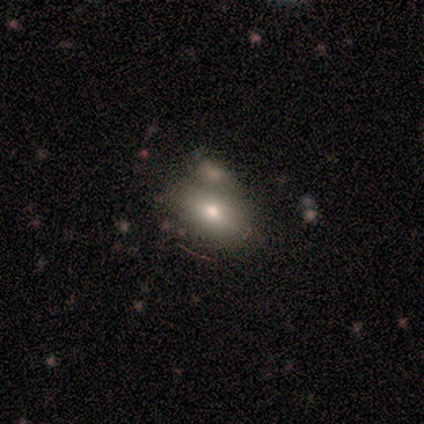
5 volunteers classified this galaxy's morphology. Smooth or featured? 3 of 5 (60%) said smooth. How rounded? 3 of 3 (100%) said in between. Merging? 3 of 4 (75%) said none.